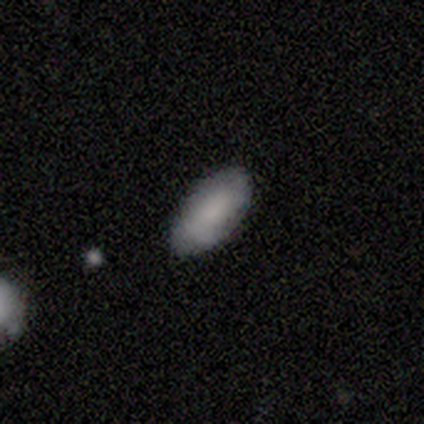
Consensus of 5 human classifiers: This appears to be a smooth galaxy with no disk features (80%) that is in between round and cigar-shaped (100%). Merging: none (100%).